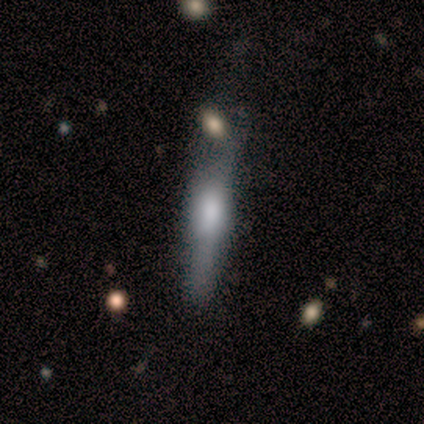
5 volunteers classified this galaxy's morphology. Smooth or featured? featured or disk (100%)
Edge-on disk? yes (60%)
Edge-on bulge? rounded (67%)
Merging? none (80%)